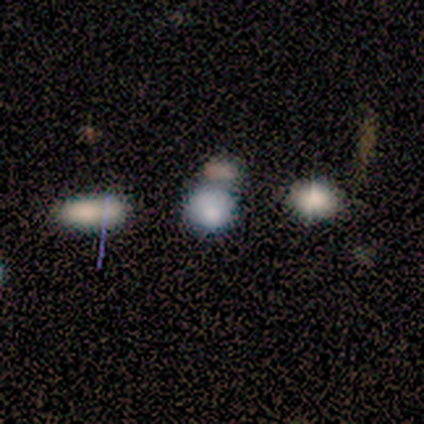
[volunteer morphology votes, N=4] Q: Smooth or featured?
A: featured or disk (50%); runner-up: smooth (25%)
Q: Edge-on disk?
A: no (100%)
Q: Bar?
A: no (100%)
Q: Spiral arms?
A: no (100%)
Q: Bulge size?
A: large (100%)
Q: Merging?
A: none (33%); tied with: major disturbance (33%); merger (33%)